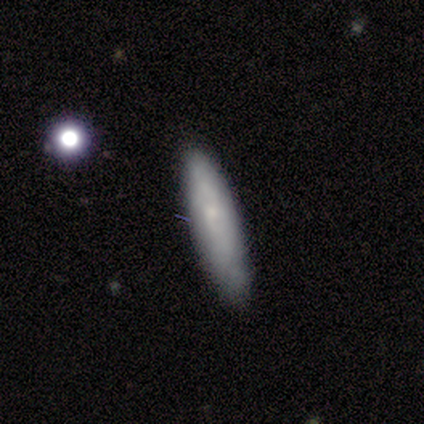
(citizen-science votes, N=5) smooth_or_featured: smooth (p=0.40) [tied with: featured or disk p=0.40]
how_rounded: in between (p=0.50) [tied with: cigar-shaped p=0.50]
merging: none (p=1.00)